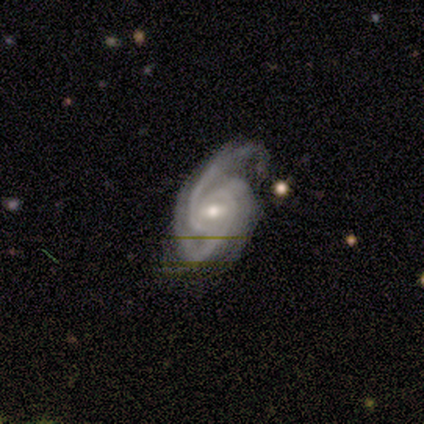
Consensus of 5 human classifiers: Volunteers were most divided on "bar": weak: 60%, no: 40%, strong: 0%. More confident: smooth or featured — featured or disk (100%); edge-on disk — no (100%); spiral arms — yes (100%); spiral winding — tight (80%); spiral arm count — 3 (60%); bulge size — moderate (60%); merging — none (60%).